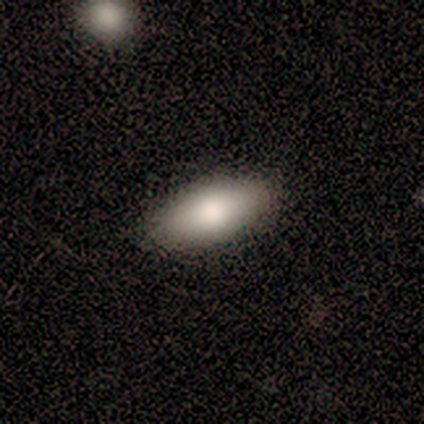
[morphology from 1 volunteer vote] A smooth galaxy with no disk features (100%) that is in between round and cigar-shaped (100%). Merging: none (100%).